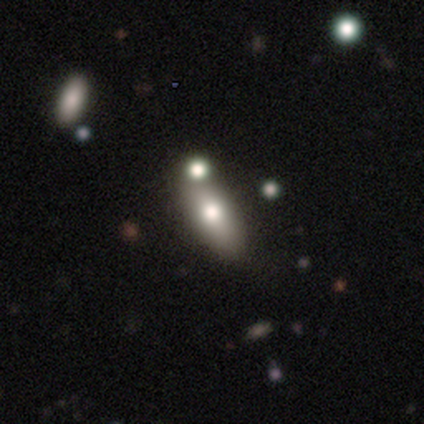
Smooth or featured? 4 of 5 (80%) said smooth. How rounded? 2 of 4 (50%, tied with cigar-shaped) said in between. Merging? 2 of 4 (50%) said none.